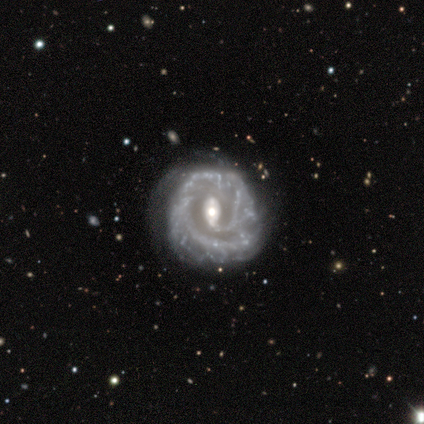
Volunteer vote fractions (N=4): Smooth or featured?
  - featured or disk: 100% *
  - smooth: 0%
  - star or artifact: 0%
Edge-on disk?
  - no: 100% *
  - yes: 0%
Bar?
  - weak: 75% *
  - no: 25%
  - strong: 0%
Spiral arms?
  - yes: 75% *
  - no: 25%
Spiral winding?
  - tight: 67% *
  - medium: 33%
  - loose: 0%
Spiral arm count?
  - 1: 33% * (tied)
  - 3: 33% * (tied)
  - 4: 33% * (tied)
  - 2: 0%
  - more than 4: 0%
  - can't tell: 0%
Bulge size?
  - small: 75% *
  - moderate: 25%
  - dominant: 0%
  - large: 0%
  - none: 0%
Merging?
  - none: 50% * (tied)
  - minor disturbance: 50% * (tied)
  - major disturbance: 0%
  - merger: 0%